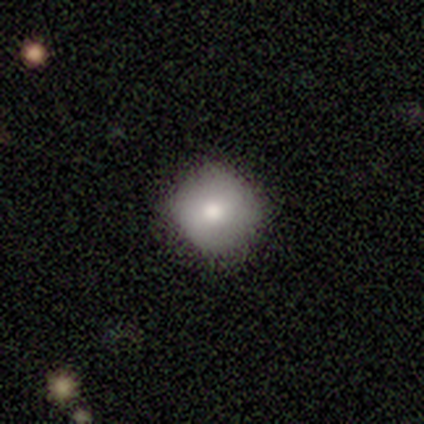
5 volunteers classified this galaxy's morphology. Volunteers were most divided on "smooth or featured": smooth: 60%, featured or disk: 20%, star or artifact: 20%. More confident: how rounded — round (100%); merging — none (100%).